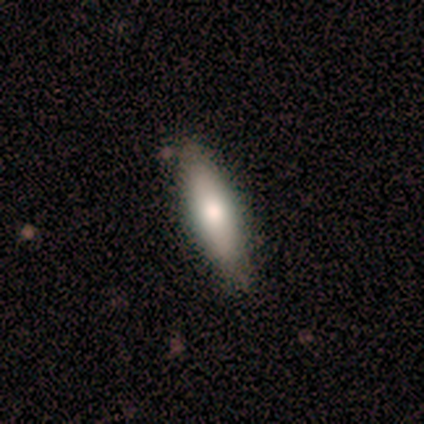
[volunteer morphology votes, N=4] Smooth or featured? smooth (100%)
How rounded? cigar-shaped (100%)
Merging? none (75%)